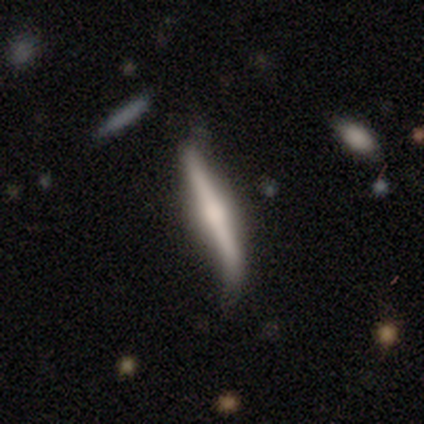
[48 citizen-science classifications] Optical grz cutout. It shows a featured or disk galaxy (58%) viewed edge-on (100%) with a rounded central bulge (75%). Merging: none (64%).